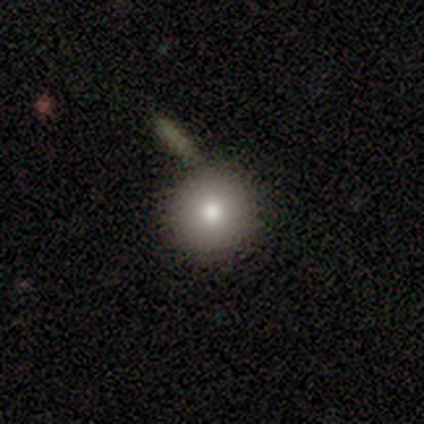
smooth 100%, featured or disk 0%, star or artifact 0%. Down the decision tree: how rounded — round (100%); merging — none (50%, tied with minor disturbance).